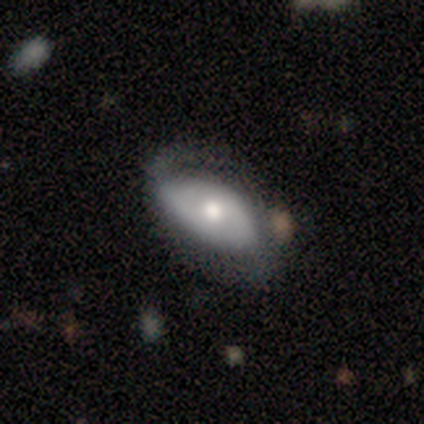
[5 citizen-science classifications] Smooth or featured: smooth — 60% (featured or disk — 40%)
How rounded: in between — 100%
Merging: none — 40% (tied with minor disturbance — 40%)